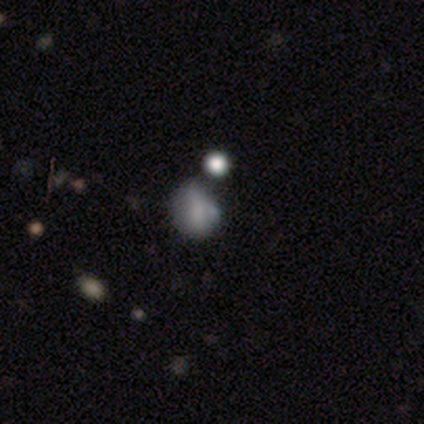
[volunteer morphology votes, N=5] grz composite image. It shows a smooth galaxy with no disk features (100%) that is round (60%). Merging: minor disturbance (40%).